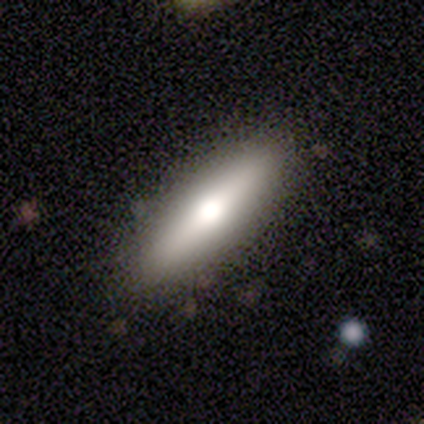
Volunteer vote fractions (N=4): Smooth or featured: smooth — 50% (featured or disk — 25%)
How rounded: in between — 100%
Merging: none — 100%